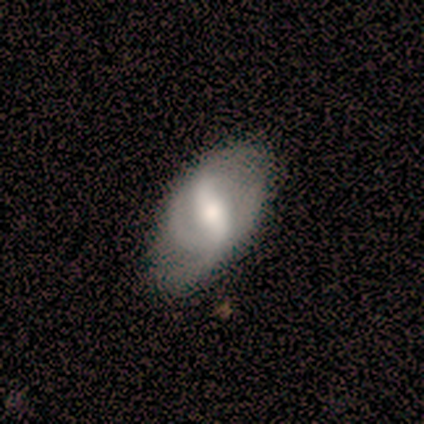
featured or disk 60%, smooth 30%, star or artifact 10%. Down the decision tree: edge-on disk — no (100%); bar — weak (67%); spiral arms — yes (100%); spiral arm count — 2 (67%); spiral winding — medium (50%); bulge size — moderate (67%); merging — minor disturbance (67%).